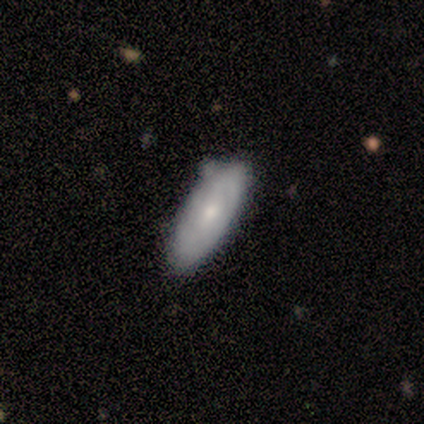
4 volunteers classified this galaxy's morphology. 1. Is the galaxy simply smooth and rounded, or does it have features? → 75% smooth, 25% featured or disk, 0% star or artifact.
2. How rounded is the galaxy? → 67% cigar-shaped, 33% in between, 0% round.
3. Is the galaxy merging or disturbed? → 75% none, 25% merger, 0% minor disturbance, 0% major disturbance.